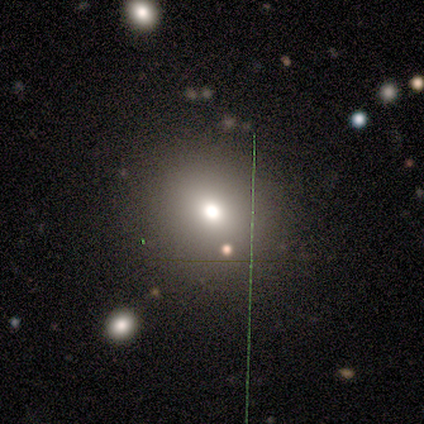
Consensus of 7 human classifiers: Volunteers were most divided on "how rounded": in between: 60%, round: 40%, cigar-shaped: 0%. More confident: merging — none (80%); smooth or featured — smooth (71%).